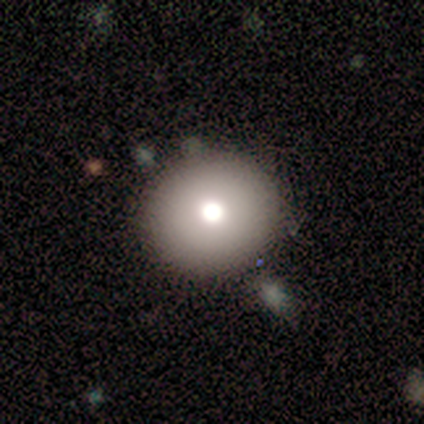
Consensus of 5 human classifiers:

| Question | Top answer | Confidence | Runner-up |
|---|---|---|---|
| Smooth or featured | smooth | 60% | star or artifact (40%) |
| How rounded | in between | 67% | round (33%) |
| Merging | none | 67% | minor disturbance (33%) |